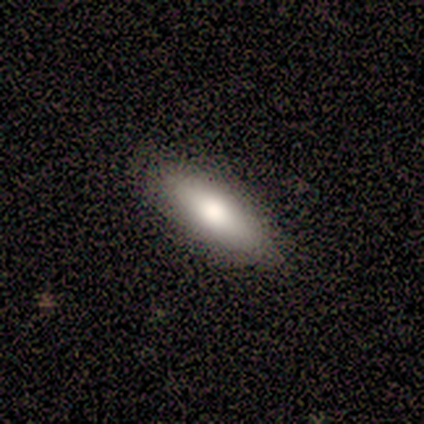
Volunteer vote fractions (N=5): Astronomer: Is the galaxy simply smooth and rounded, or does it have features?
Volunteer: smooth — 40%, tied with featured or disk at 40%.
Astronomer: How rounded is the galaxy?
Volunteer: in between — 100%.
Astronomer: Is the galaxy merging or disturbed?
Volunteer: none — 100%.